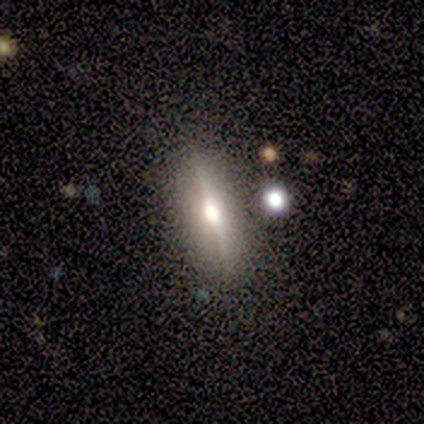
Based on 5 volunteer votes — smooth_or_featured: featured or disk (p=0.60) [alt: smooth p=0.20]
disk_edge_on: yes (p=1.00)
edge_on_bulge: rounded (p=1.00)
merging: none (p=1.00)